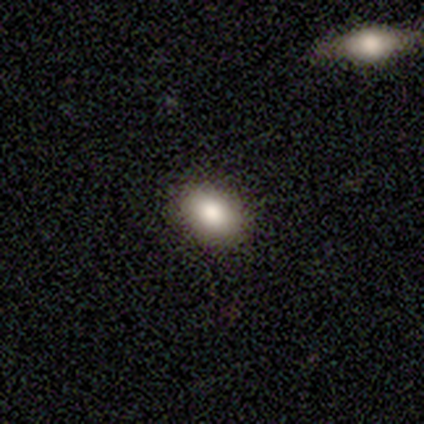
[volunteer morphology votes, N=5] Overall: smooth (100%). How rounded: in between (100%). Merging: none (100%).